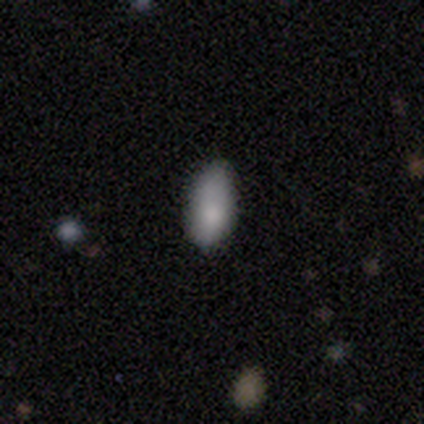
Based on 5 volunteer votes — This appears to be a smooth galaxy with no disk features (100%) that is in between round and cigar-shaped (100%). Merging: none (60%).